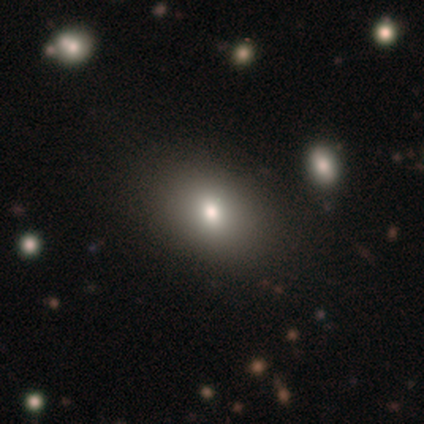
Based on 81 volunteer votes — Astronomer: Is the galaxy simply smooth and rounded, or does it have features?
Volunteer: smooth — 74%.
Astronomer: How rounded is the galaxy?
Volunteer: in between — 68%.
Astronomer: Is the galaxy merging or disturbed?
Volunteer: none — 41%.